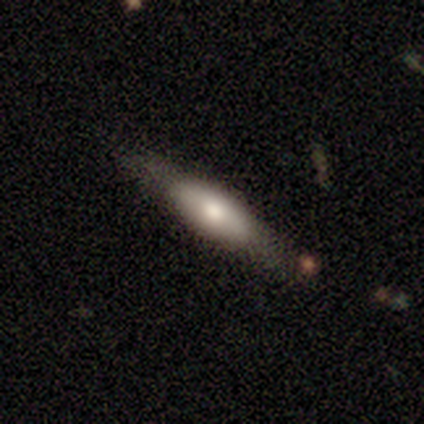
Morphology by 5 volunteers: Smooth or featured: smooth — 60% (featured or disk — 40%)
How rounded: cigar-shaped — 67% (in between — 33%)
Merging: none — 60% (minor disturbance — 40%)